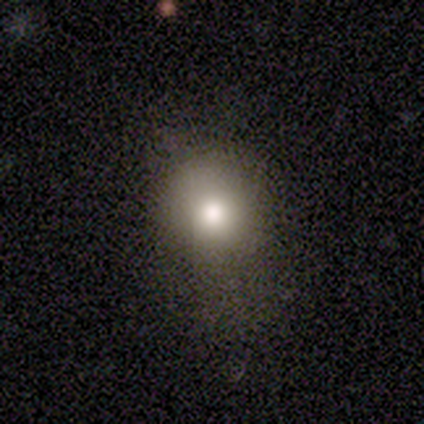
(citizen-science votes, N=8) This appears to be a smooth galaxy with no disk features (100%) that is round (62%). Merging: none (62%).